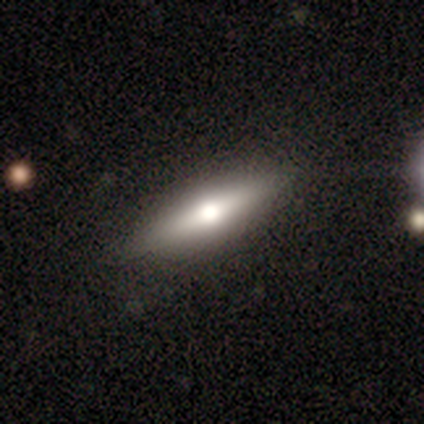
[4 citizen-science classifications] Smooth or featured? 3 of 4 (75%) said smooth. How rounded? 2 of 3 (67%) said in between. Merging? 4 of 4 (100%) said none.